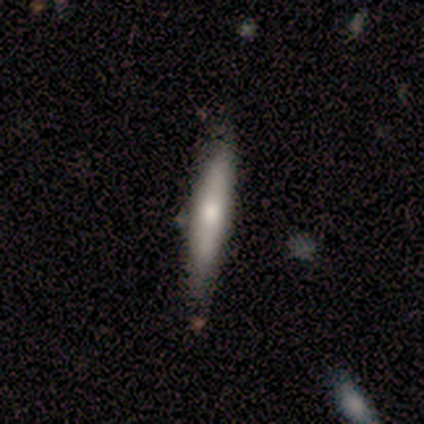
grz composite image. It shows a smooth galaxy with no disk features (86%) that is cigar-shaped (83%). Merging: none (71%).